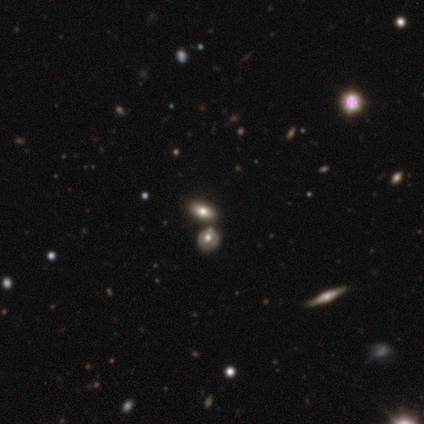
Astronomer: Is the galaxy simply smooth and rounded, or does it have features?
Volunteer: smooth — 80%.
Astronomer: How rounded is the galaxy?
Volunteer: in between — 100%.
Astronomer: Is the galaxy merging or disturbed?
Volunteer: merger — 40% (runner-up: none, 20%).